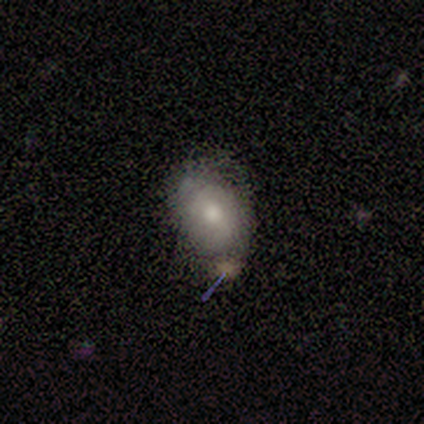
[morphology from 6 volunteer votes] A smooth galaxy with no disk features (67%) that is round (50%, tied with in between).

Vote fractions:
- Smooth or featured? smooth: 67% / featured or disk: 33% / star or artifact: 0%
- How rounded? round: 50% (tied) / in between: 50% (tied) / cigar-shaped: 0%
- Merging? minor disturbance: 50% / none: 17% / major disturbance: 17% / merger: 17%